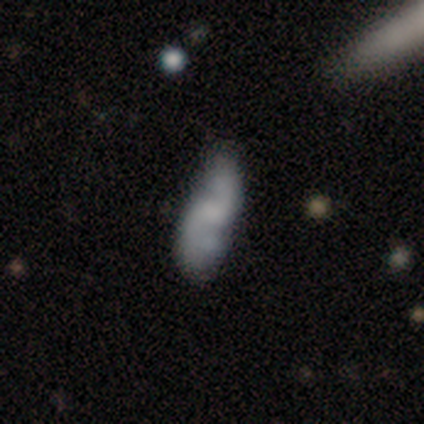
Smooth or featured? featured or disk (77%)
Edge-on disk? no (93%)
Bar? no (50%)
Spiral arms? yes (75%)
Spiral winding? loose (86%)
Spiral arm count? 2 (90%)
Bulge size? none (54%)
Merging? none (39%)